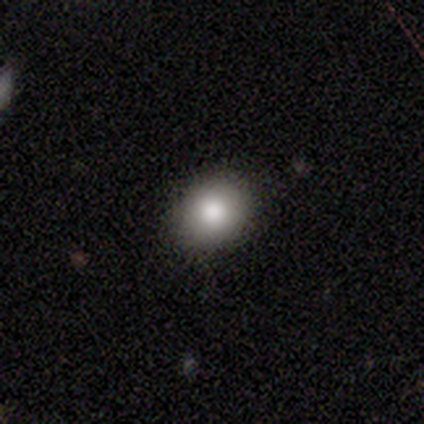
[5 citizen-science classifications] Q: Smooth or featured?
A: smooth (100%)
Q: How rounded?
A: round (60%); runner-up: in between (40%)
Q: Merging?
A: none (80%); runner-up: minor disturbance (20%)